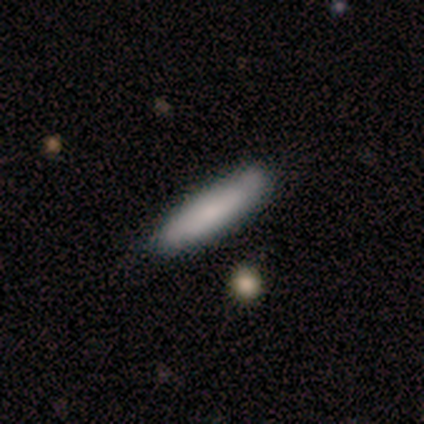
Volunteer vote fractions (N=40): Q: Smooth or featured?
A: smooth (85%); runner-up: featured or disk (10%)
Q: How rounded?
A: cigar-shaped (76%); runner-up: in between (24%)
Q: Merging?
A: none (63%); runner-up: minor disturbance (13%)